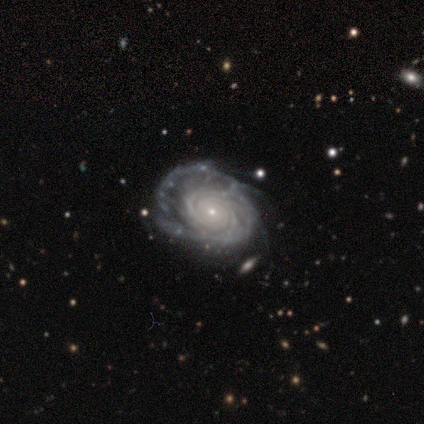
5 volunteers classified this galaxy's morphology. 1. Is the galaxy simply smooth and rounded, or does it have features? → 100% featured or disk, 0% smooth, 0% star or artifact.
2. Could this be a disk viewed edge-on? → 100% no, 0% yes.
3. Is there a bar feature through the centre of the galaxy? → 60% no, 40% strong, 0% weak.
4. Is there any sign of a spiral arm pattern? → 100% yes, 0% no.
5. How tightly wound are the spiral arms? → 80% tight, 20% medium, 0% loose.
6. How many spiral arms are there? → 40% 3 (tied), 40% can't tell (tied), 20% 4, 0% 1, 0% 2, 0% more than 4.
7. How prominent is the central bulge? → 80% small, 20% none, 0% dominant, 0% large, 0% moderate.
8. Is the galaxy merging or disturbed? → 40% minor disturbance (tied), 40% major disturbance (tied), 20% none, 0% merger.